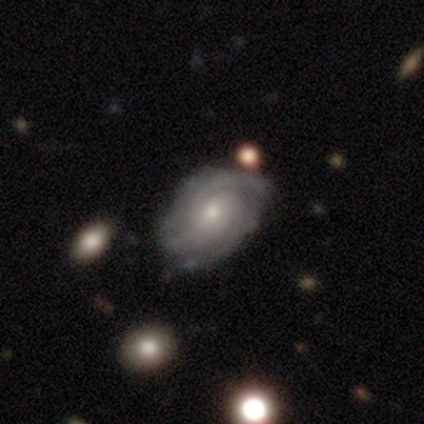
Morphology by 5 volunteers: A featured or disk galaxy (80%) with no bar (75%), tight (75%) spiral arms (100%) and a moderate central bulge (50%, tied with small).

Vote fractions:
- Smooth or featured? featured or disk: 80% / star or artifact: 20% / smooth: 0%
- Edge-on disk? no: 100% / yes: 0%
- Bar? no: 75% / weak: 25% / strong: 0%
- Spiral arms? yes: 100% / no: 0%
- Spiral winding? tight: 75% / medium: 25% / loose: 0%
- Spiral arm count? can't tell: 50% / 2: 25% / 3: 25% / 1: 0% / 4: 0% / more than 4: 0%
- Bulge size? moderate: 50% (tied) / small: 50% (tied) / dominant: 0% / large: 0% / none: 0%
- Merging? none: 50% (tied) / minor disturbance: 50% (tied) / major disturbance: 0% / merger: 0%